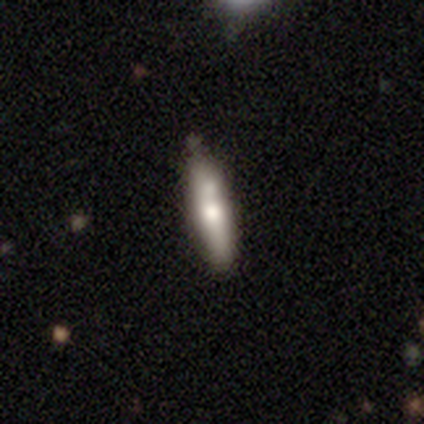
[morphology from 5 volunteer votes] Q: Smooth or featured?
A: smooth (80%); runner-up: featured or disk (20%)
Q: How rounded?
A: cigar-shaped (100%)
Q: Merging?
A: none (40%); runner-up: minor disturbance (20%)